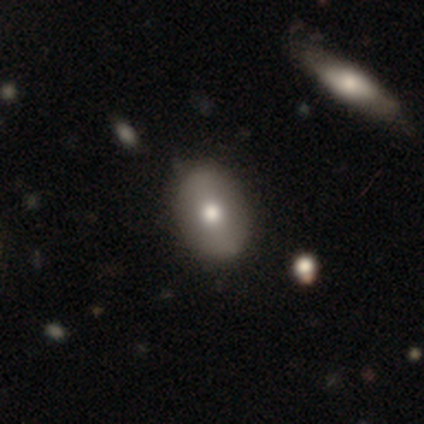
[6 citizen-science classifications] smooth-or-featured: smooth: 50% | featured or disk: 33% | star or artifact: 17%
  how-rounded: in between: 67% | round: 33% | cigar-shaped: 0%
  merging: none: 80% | minor disturbance: 20% | major disturbance: 0% | merger: 0%